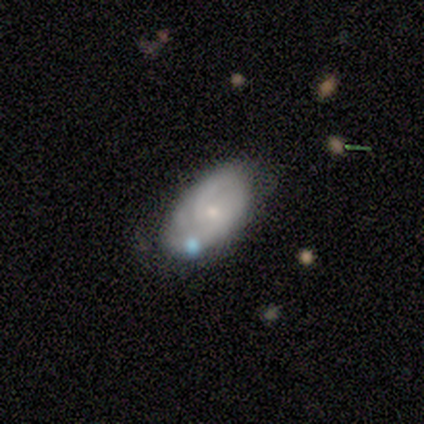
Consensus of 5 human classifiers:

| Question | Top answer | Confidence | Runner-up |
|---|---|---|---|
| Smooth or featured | smooth | 80% | featured or disk (20%) |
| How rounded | in between | 100% | — |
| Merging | none | 40% | tied: minor disturbance (40%) |